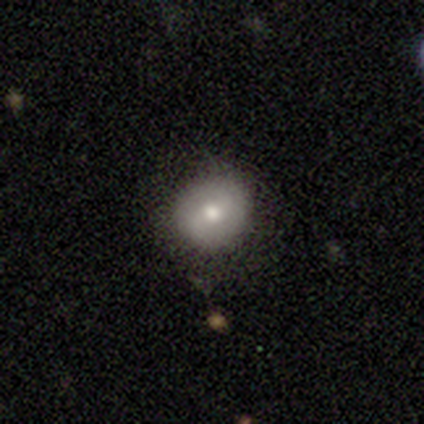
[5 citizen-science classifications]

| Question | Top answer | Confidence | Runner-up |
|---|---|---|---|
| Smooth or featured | smooth | 60% | featured or disk (40%) |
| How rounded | round | 100% | — |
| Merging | none | 80% | minor disturbance (20%) |